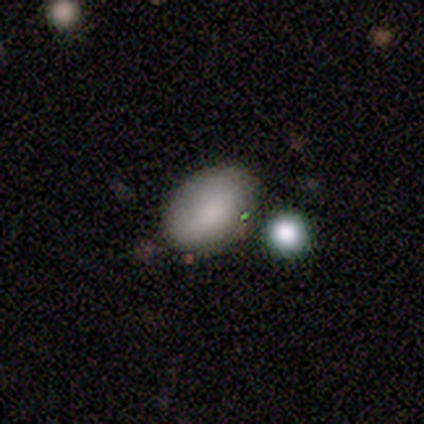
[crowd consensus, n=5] Smooth or featured: smooth — 80% (star or artifact — 20%)
How rounded: in between — 100%
Merging: none — 100%